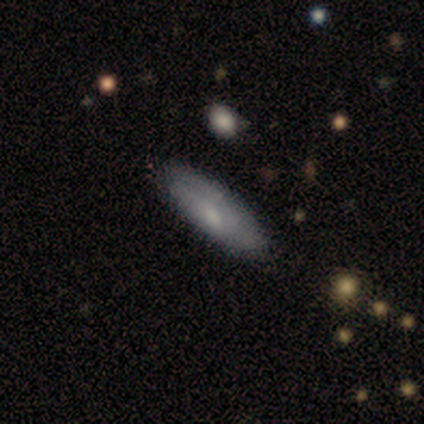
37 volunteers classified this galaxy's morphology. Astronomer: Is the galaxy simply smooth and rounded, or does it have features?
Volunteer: smooth — 70%.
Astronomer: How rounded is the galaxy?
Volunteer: in between — 58% (runner-up: cigar-shaped, 42%).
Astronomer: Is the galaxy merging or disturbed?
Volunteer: none — 71%.